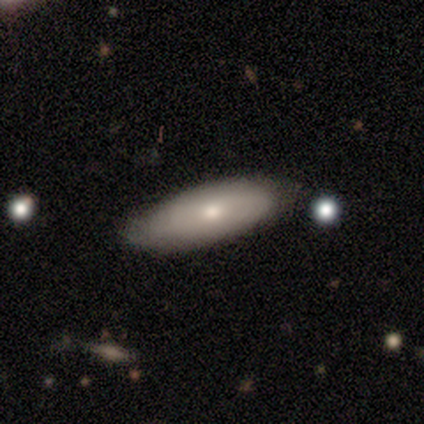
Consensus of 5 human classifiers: Volunteers were most divided on "smooth or featured": smooth: 60%, featured or disk: 40%, star or artifact: 0%. More confident: how rounded — in between (100%); merging — none (80%).